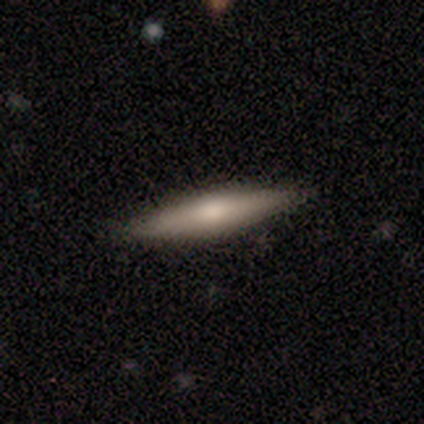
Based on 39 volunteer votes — smooth-or-featured: smooth: 49% (tied) | featured or disk: 49% (tied) | star or artifact: 3%
  how-rounded: cigar-shaped: 89% | in between: 11% | round: 0%
  merging: none: 87% | minor disturbance: 11% | merger: 3% | major disturbance: 0%